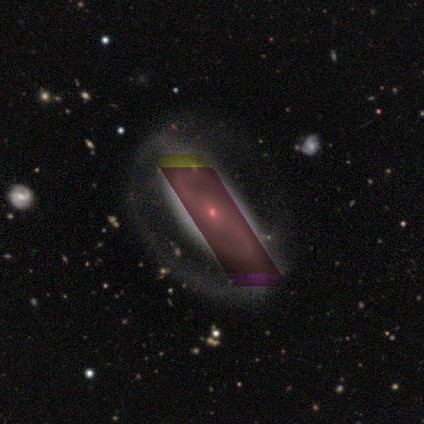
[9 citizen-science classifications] Volunteers were most divided on "bar" (2-way tie): weak: 40%, no: 40%, strong: 20%. More confident: edge-on disk — no (100%); spiral arms — yes (100%); merging — none (83%); spiral arm count — 2 (80%); bulge size — small (80%); spiral winding — medium (60%); smooth or featured — featured or disk (56%).